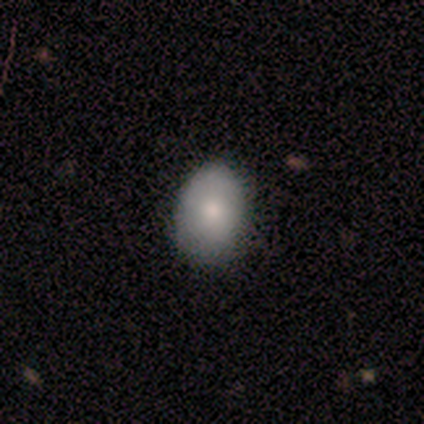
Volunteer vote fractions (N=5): smooth 80%, featured or disk 20%, star or artifact 0%. Down the decision tree: how rounded — round (50%, tied with in between); merging — minor disturbance (60%).